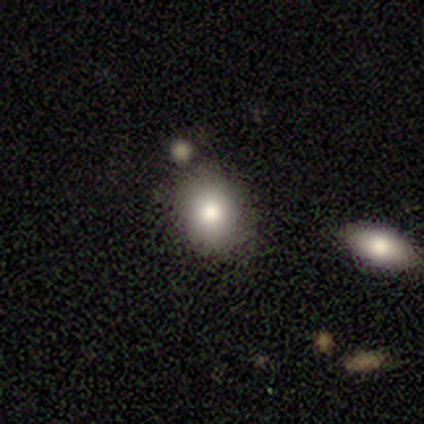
Smooth or featured: smooth — 82% (star or artifact — 12%)
How rounded: round — 54% (in between — 46%)
Merging: none — 73% (minor disturbance — 20%)